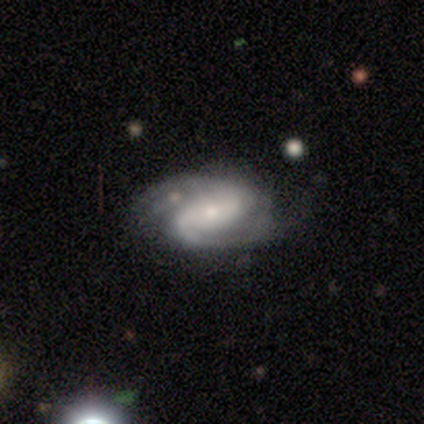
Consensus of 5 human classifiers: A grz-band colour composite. It shows a featured or disk galaxy (80%) with a weak bar (50%), 2 (75%) medium (50%) spiral arms (100%) and a small central bulge (100%). Merging: none (80%).